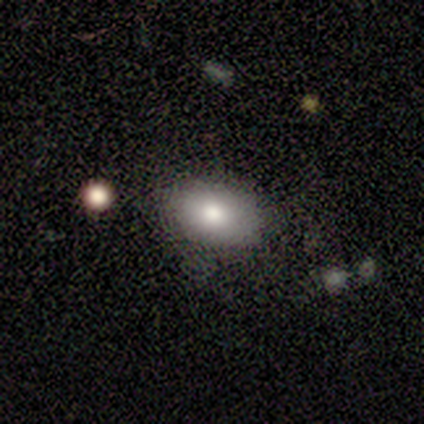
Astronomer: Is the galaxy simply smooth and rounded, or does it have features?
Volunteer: smooth — 80%.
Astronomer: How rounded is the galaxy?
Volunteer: in between — 100%.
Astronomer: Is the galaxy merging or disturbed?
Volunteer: none — 100%.